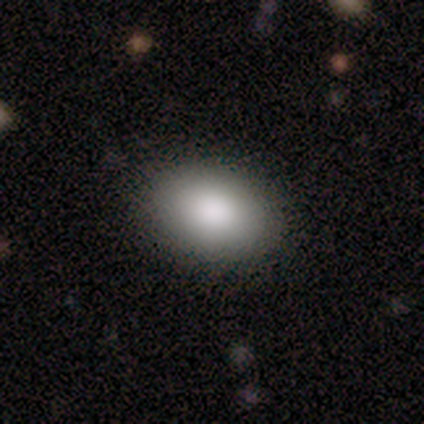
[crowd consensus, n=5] Q: Smooth or featured?
A: smooth (80%); runner-up: star or artifact (20%)
Q: How rounded?
A: in between (100%)
Q: Merging?
A: none (75%); runner-up: minor disturbance (25%)